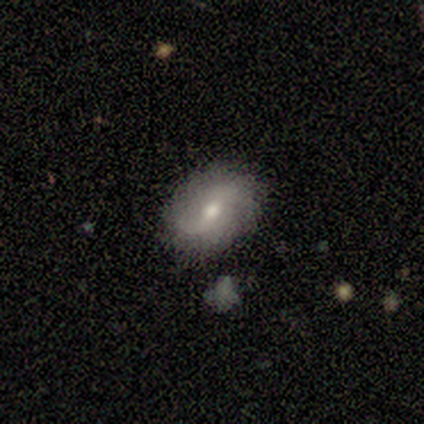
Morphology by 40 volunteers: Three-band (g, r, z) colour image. It shows a featured or disk galaxy (57%) with no bar (57%), 2 (90%) loose (55%) spiral arms (87%) and a moderate central bulge (83%). Merging: none (89%).